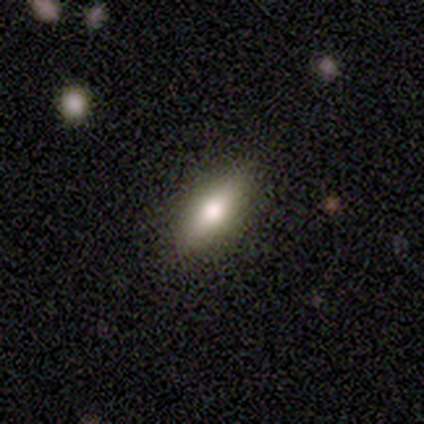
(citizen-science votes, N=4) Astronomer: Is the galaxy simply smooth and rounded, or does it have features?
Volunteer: featured or disk — 50%.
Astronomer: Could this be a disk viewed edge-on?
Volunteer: yes — 100%.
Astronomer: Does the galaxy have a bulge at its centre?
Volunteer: rounded — 100%.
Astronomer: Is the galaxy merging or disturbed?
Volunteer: none — 100%.